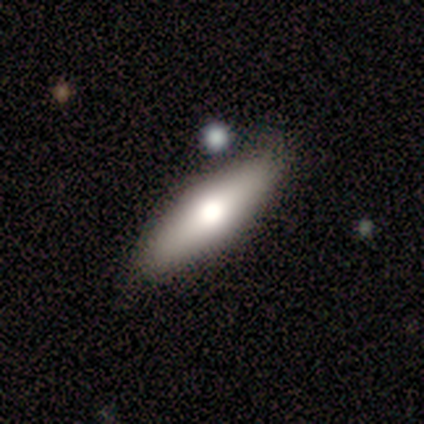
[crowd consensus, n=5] Smooth or featured?
  - smooth: 60% *
  - featured or disk: 40%
  - star or artifact: 0%
How rounded?
  - cigar-shaped: 67% *
  - in between: 33%
  - round: 0%
Merging?
  - none: 80% *
  - major disturbance: 20%
  - minor disturbance: 0%
  - merger: 0%